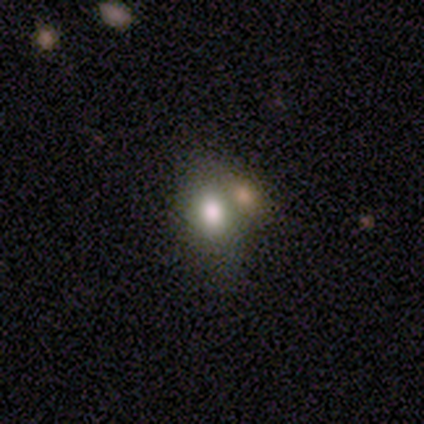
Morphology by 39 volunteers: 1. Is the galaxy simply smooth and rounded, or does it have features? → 67% smooth, 21% star or artifact, 13% featured or disk.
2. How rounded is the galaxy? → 81% in between, 19% round, 0% cigar-shaped.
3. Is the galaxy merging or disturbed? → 45% none (tied), 45% merger (tied), 6% major disturbance, 3% minor disturbance.